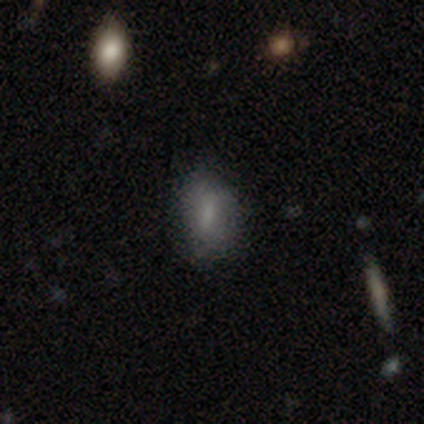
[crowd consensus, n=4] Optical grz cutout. It shows a smooth galaxy with no disk features (75%) that is in between round and cigar-shaped (67%). Merging: none (67%).